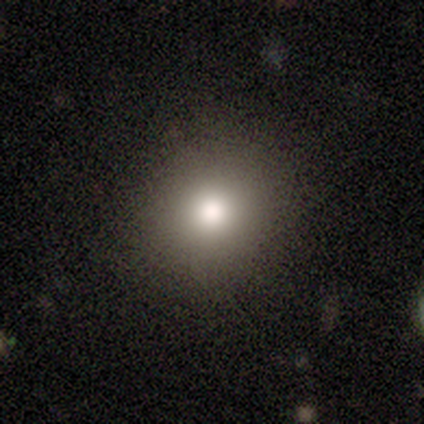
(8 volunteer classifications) Smooth or featured? 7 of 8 (88%) said smooth. How rounded? 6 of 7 (86%) said round. Merging? 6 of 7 (86%) said none.